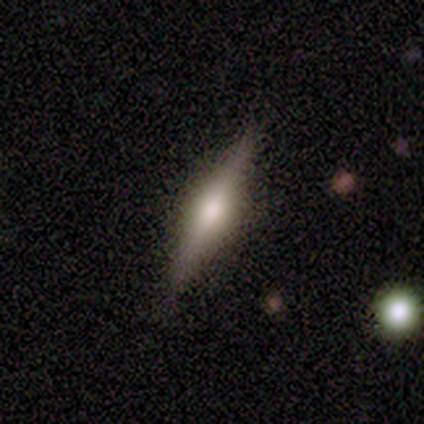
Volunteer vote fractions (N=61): Smooth or featured? featured or disk (77%)
Edge-on disk? yes (98%)
Edge-on bulge? rounded (87%)
Merging? none (87%)